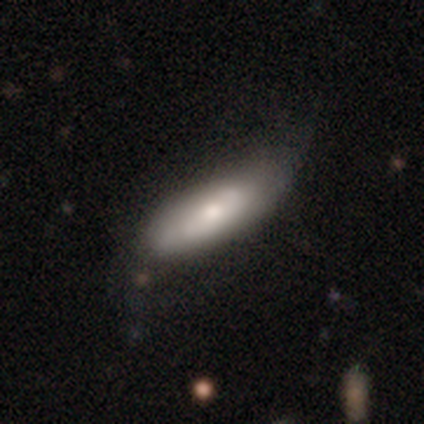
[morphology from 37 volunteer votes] Smooth or featured? smooth (65%)
How rounded? cigar-shaped (62%)
Merging? none (47%)